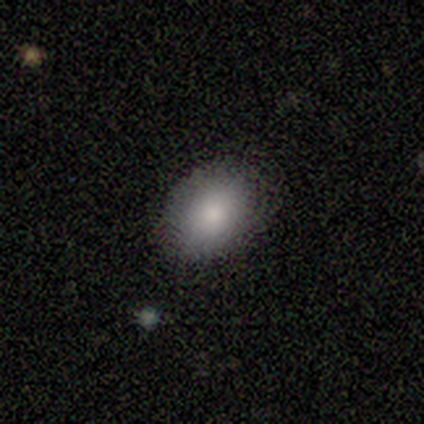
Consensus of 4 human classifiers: Smooth or featured? 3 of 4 (75%) said smooth. How rounded? 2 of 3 (67%) said in between. Merging? 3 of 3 (100%) said none.